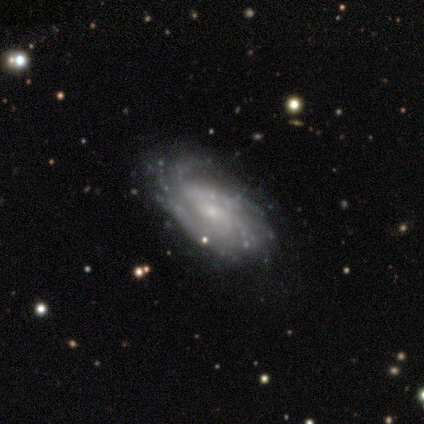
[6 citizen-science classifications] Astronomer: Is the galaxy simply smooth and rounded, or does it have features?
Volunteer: featured or disk — 100%.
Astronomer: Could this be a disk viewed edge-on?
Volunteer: no — 100%.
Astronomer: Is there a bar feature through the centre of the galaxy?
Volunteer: no — 67%.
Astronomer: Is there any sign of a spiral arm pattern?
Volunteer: yes — 83%.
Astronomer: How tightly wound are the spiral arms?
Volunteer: tight — 80%.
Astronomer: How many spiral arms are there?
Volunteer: more than 4 — 40% (runner-up: 3, 20%).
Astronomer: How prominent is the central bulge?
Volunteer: small — 100%.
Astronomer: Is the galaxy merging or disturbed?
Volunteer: none — 67%.